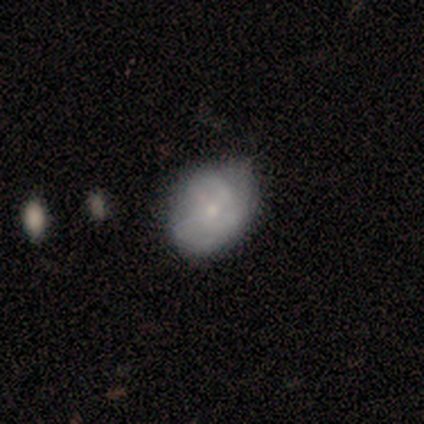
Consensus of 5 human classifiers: Volunteers were most divided on "merging": none: 60%, minor disturbance: 40%, major disturbance: 0%, merger: 0%. More confident: how rounded — in between (100%); smooth or featured — smooth (80%).